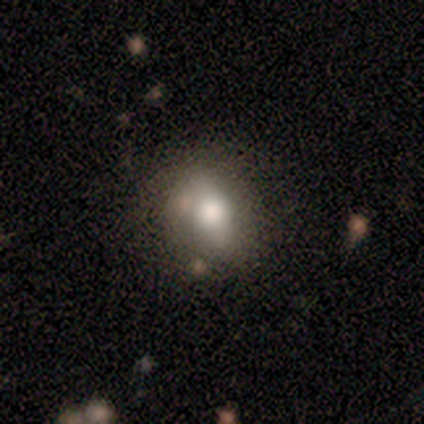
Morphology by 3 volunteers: Q: Smooth or featured?
A: smooth (100%)
Q: How rounded?
A: round (33%); tied with: in between (33%); cigar-shaped (33%)
Q: Merging?
A: minor disturbance (67%); runner-up: major disturbance (33%)